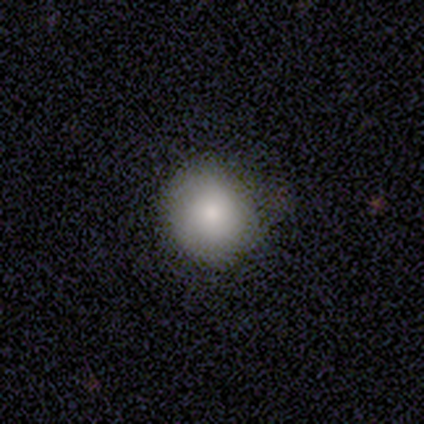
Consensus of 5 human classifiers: Morphology: type=smooth (100%); roundness=round (100%); merging=none (80%).